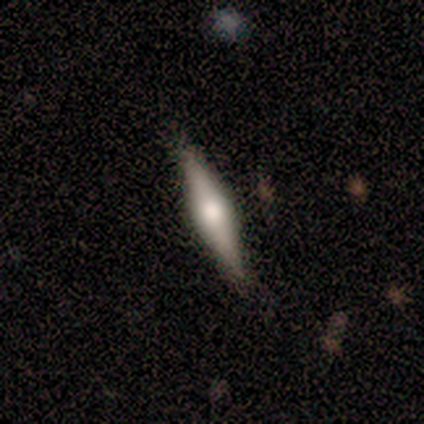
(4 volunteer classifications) smooth 50% (tied), featured or disk 50% (tied), star or artifact 0%. Down the decision tree: how rounded — cigar-shaped (100%); merging — none (75%).